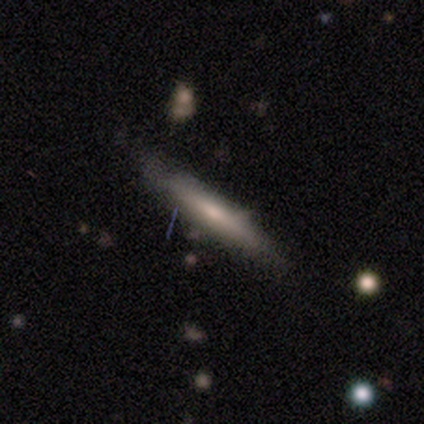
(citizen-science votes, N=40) A smooth galaxy with no disk features (65%) that is cigar-shaped (100%). Merging: none (77%).